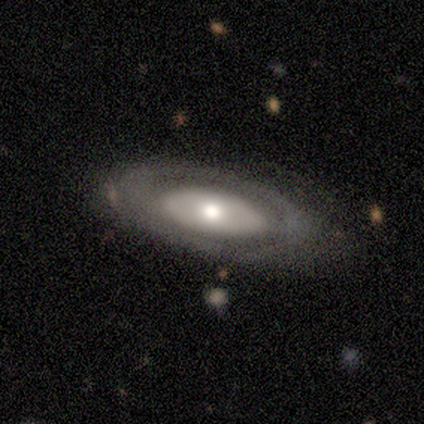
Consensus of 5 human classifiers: Overall: featured or disk (80%). Edge-on disk: no (75%). Bar: no (100%). Spiral arms: no (100%). Bulge size: moderate (67%; none 33%). Merging: none (60%; minor disturbance 20%).